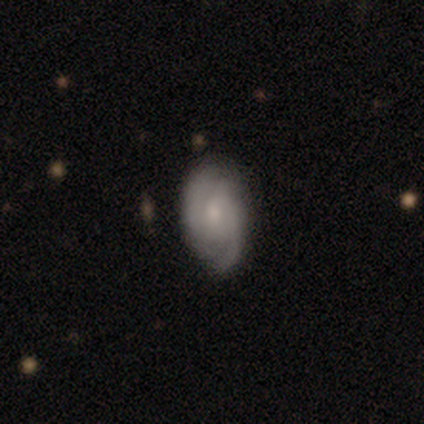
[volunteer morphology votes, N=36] This is clearly a featured or disk galaxy (81%). It is clearly not viewed edge-on (97%). Bar: possibly no (50%). Spiral arm pattern: clearly yes (82%). Spiral arm count: likely 2 (74%). Spiral winding: possibly medium (48%). Central bulge: likely small (79%). Merging: clearly none (80%).